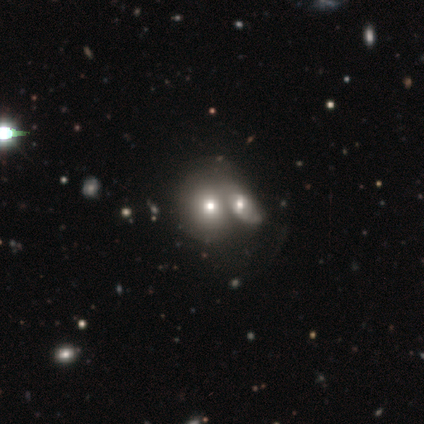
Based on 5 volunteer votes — Smooth or featured? 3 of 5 (60%) said smooth. How rounded? 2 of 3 (67%) said round. Merging? 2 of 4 (50%) said merger.